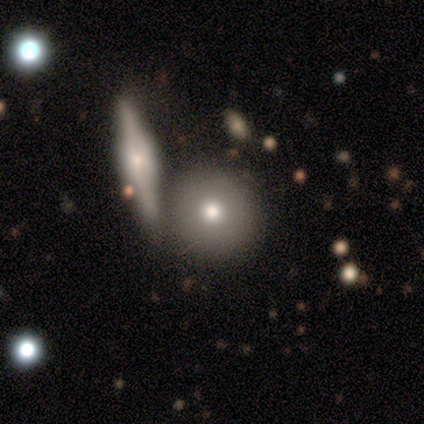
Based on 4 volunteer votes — Smooth or featured: smooth — 100%
How rounded: round — 100%
Merging: none — 100%